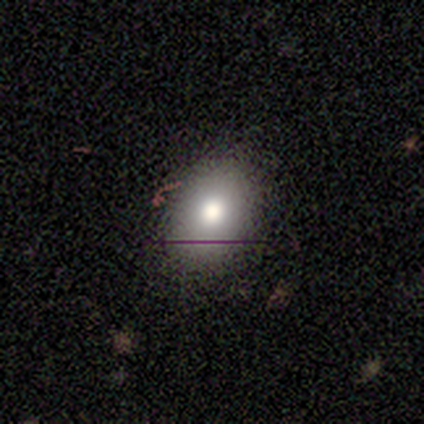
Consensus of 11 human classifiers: Volunteers were most divided on "merging": none: 67%, minor disturbance: 33%, major disturbance: 0%, merger: 0%. More confident: how rounded — in between (89%); smooth or featured — smooth (82%).